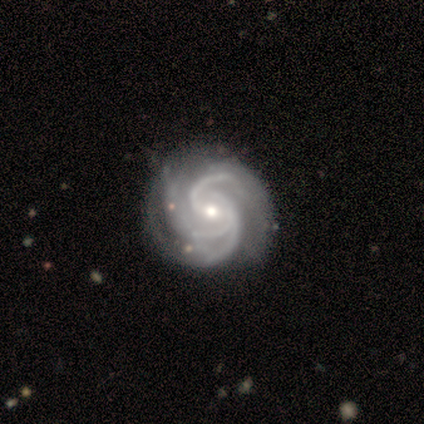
Smooth or featured? 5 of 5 (100%) said featured or disk. Edge-on disk? 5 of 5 (100%) said no. Bar? 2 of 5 (40%, tied with weak) said strong. Spiral arms? 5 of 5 (100%) said yes. Spiral winding? 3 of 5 (60%) said medium. Spiral arm count? 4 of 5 (80%) said 3. Bulge size? 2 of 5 (40%, tied with small) said moderate. Merging? 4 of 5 (80%) said none.